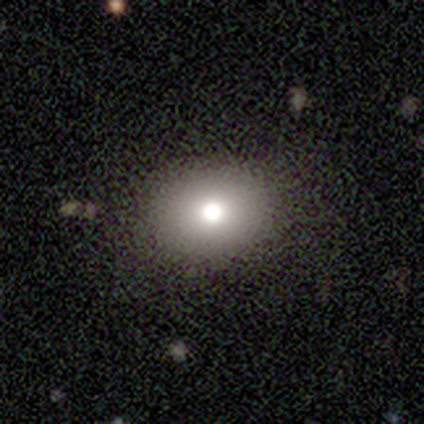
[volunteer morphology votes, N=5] A smooth galaxy with no disk features (80%) that is in between round and cigar-shaped (75%). Merging: none (100%).